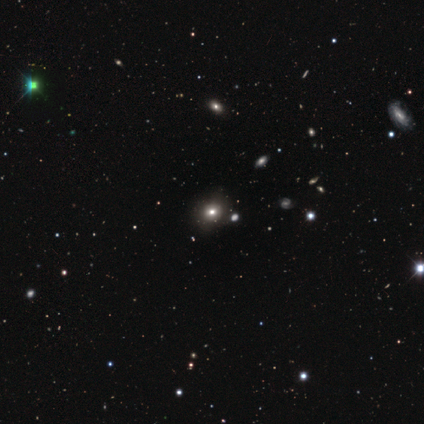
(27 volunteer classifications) Q: Smooth or featured?
A: star or artifact (48%); runner-up: smooth (44%)